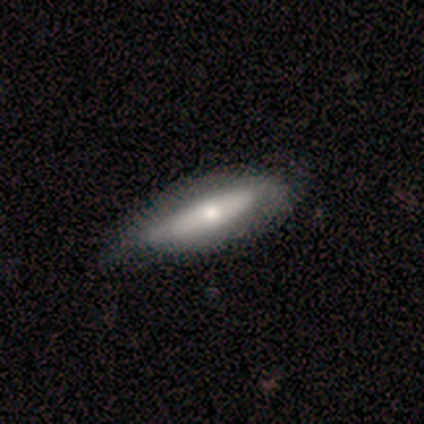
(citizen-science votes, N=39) Overall: smooth (54%; featured or disk 44%). How rounded: cigar-shaped (52%; in between 48%). Merging: none (42%; minor disturbance 18%).